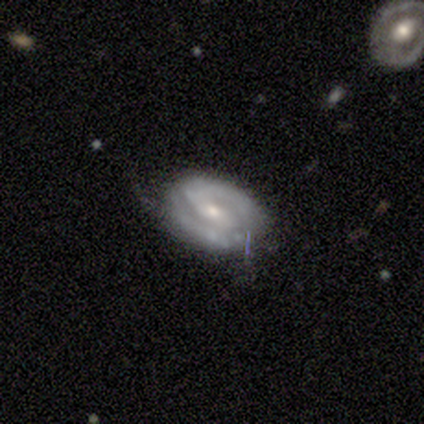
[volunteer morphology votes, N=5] featured or disk 60%, smooth 40%, star or artifact 0%. Down the decision tree: edge-on disk — no (100%); bar — no (67%); spiral arms — yes (100%); spiral arm count — 1 (67%); spiral winding — medium (100%); bulge size — moderate (67%); merging — none (60%).